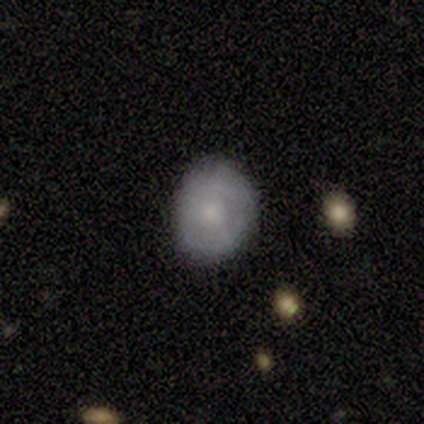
A smooth galaxy with no disk features (64%) that is round (52%). Merging: none (83%).